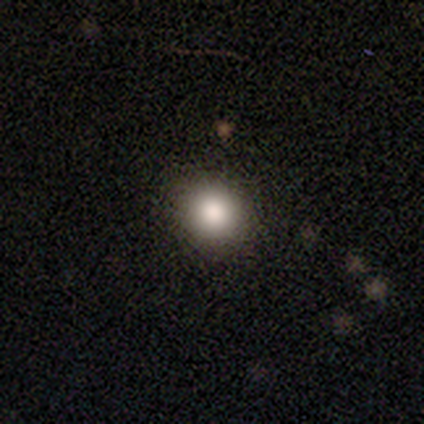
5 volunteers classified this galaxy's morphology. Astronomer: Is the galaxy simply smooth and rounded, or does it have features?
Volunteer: smooth — 80%.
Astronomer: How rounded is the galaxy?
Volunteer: round — 75%.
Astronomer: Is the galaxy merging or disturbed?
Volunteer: none — 80%.